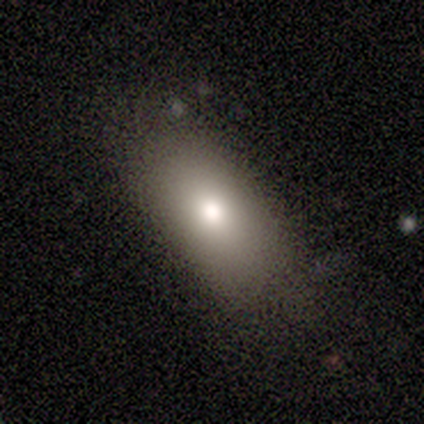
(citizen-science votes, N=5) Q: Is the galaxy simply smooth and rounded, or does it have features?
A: smooth — 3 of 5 (60%).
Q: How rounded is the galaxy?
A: in between — 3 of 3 (100%).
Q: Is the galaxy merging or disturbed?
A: none — 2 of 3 (67%).